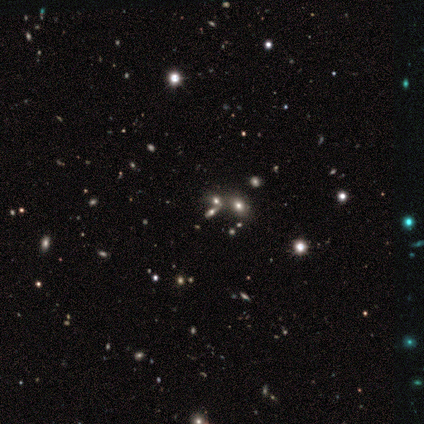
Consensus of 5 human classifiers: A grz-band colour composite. It shows a star or artifact, not a galaxy (60%).